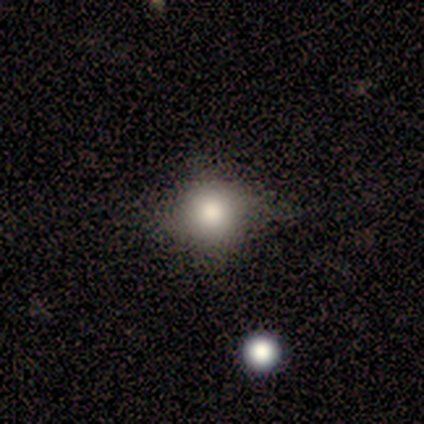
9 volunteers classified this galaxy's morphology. smooth_or_featured: smooth (p=0.67) [alt: star or artifact p=0.33]
how_rounded: round (p=0.67) [alt: in between p=0.33]
merging: none (p=0.67) [alt: minor disturbance p=0.33]